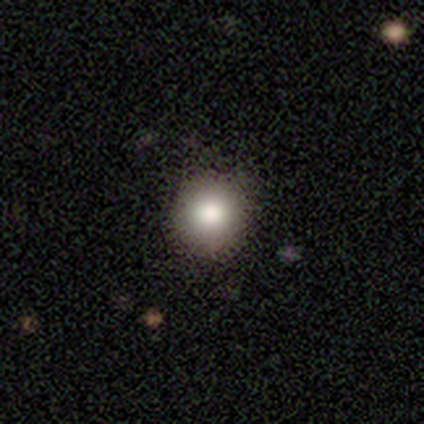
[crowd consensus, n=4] Smooth or featured?
  - smooth: 50% * (tied)
  - star or artifact: 50% * (tied)
  - featured or disk: 0%
How rounded?
  - round: 100% *
  - in between: 0%
  - cigar-shaped: 0%
Merging?
  - none: 100% *
  - minor disturbance: 0%
  - major disturbance: 0%
  - merger: 0%